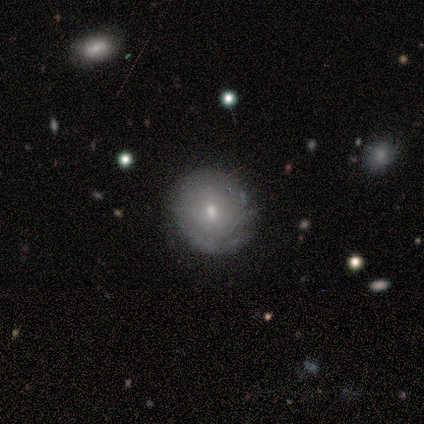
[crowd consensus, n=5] Overall: smooth (40%, tied with featured or disk). How rounded: round (100%). Merging: none (100%).